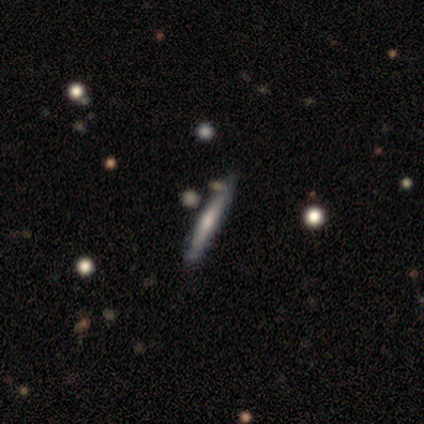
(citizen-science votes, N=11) A featured or disk galaxy (64%) viewed edge-on (100%) with a rounded central bulge (57%). Merging: none (60%).